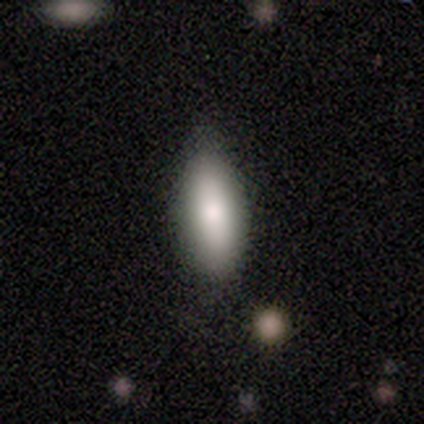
A smooth galaxy with no disk features (100%) that is in between round and cigar-shaped (75%).

Vote fractions:
- Smooth or featured? smooth: 100% / featured or disk: 0% / star or artifact: 0%
- How rounded? in between: 75% / cigar-shaped: 25% / round: 0%
- Merging? none: 75% / minor disturbance: 25% / major disturbance: 0% / merger: 0%